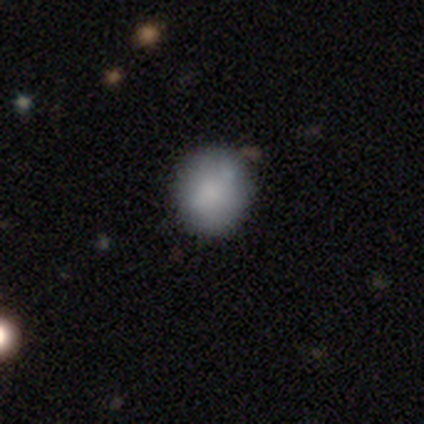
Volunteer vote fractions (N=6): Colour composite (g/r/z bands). It shows a smooth galaxy with no disk features (100%) that is round (83%). Merging: none (67%).